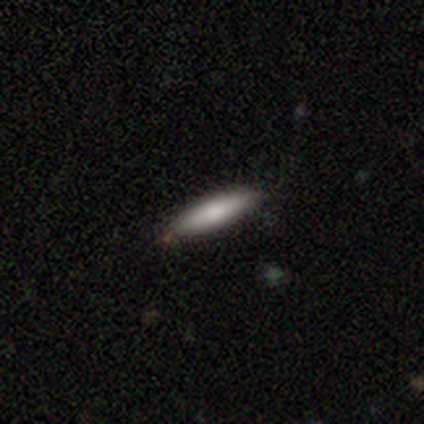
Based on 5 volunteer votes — smooth 80%, star or artifact 20%, featured or disk 0%. Down the decision tree: how rounded — in between (75%); merging — none (75%).